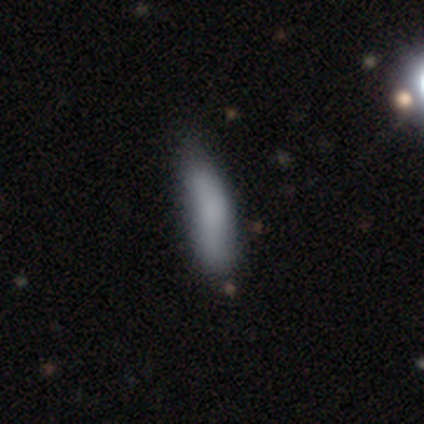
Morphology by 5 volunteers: Smooth or featured?
  - smooth: 60% *
  - featured or disk: 40%
  - star or artifact: 0%
How rounded?
  - in between: 67% *
  - cigar-shaped: 33%
  - round: 0%
Merging?
  - none: 60% *
  - minor disturbance: 40%
  - major disturbance: 0%
  - merger: 0%